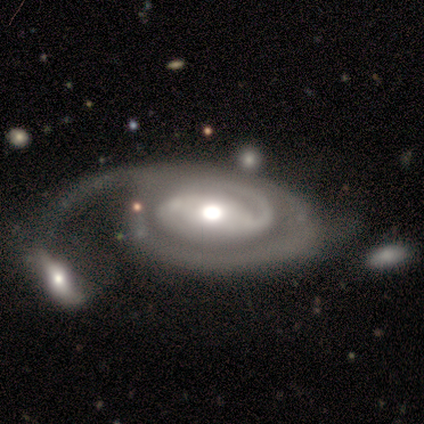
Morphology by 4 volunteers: Smooth or featured? featured or disk (100%)
Edge-on disk? no (100%)
Bar? no (50%)
Spiral arms? yes (100%)
Spiral winding? tight (100%)
Spiral arm count? 2 (50%, tied with can't tell)
Bulge size? moderate (75%)
Merging? none (50%, tied with merger)